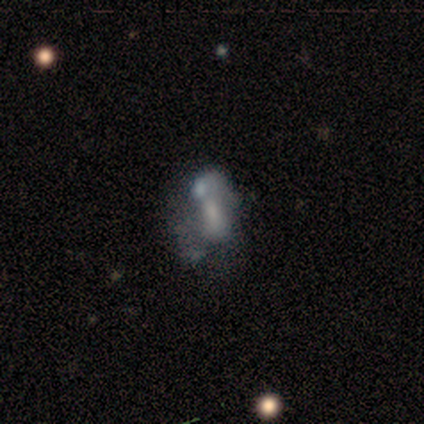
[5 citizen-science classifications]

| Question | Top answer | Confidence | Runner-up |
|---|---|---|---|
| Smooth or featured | smooth | 40% | tied: featured or disk (40%) |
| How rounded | in between | 100% | — |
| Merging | minor disturbance | 50% | tied: merger (50%) |